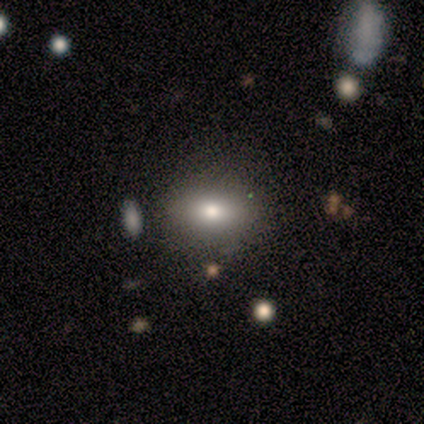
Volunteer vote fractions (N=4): A smooth galaxy with no disk features (100%) that is in between round and cigar-shaped (100%).

Vote fractions:
- Smooth or featured? smooth: 100% / featured or disk: 0% / star or artifact: 0%
- How rounded? in between: 100% / round: 0% / cigar-shaped: 0%
- Merging? none: 75% / minor disturbance: 25% / major disturbance: 0% / merger: 0%